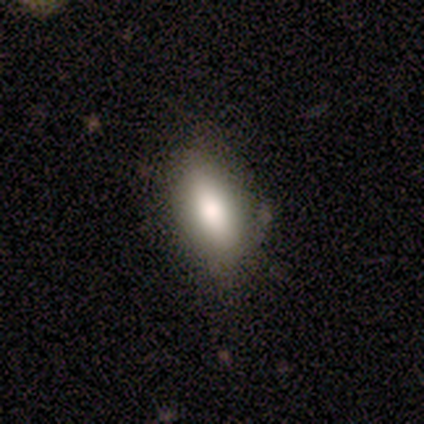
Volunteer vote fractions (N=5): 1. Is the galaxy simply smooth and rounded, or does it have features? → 80% smooth, 20% featured or disk, 0% star or artifact.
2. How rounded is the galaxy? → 100% in between, 0% round, 0% cigar-shaped.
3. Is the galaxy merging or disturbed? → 100% none, 0% minor disturbance, 0% major disturbance, 0% merger.